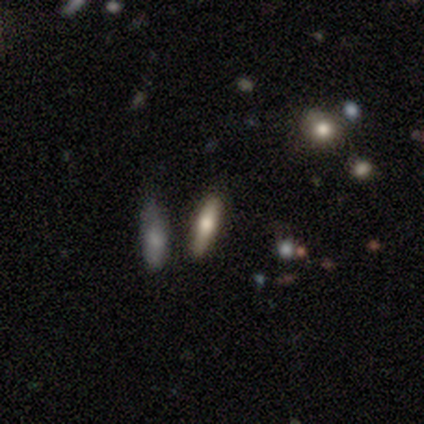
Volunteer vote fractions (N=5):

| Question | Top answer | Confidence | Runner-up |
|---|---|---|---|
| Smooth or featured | smooth | 100% | — |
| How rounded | cigar-shaped | 100% | — |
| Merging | none | 100% | — |